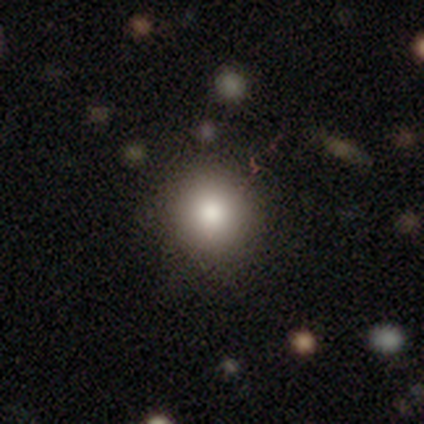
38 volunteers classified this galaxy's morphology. smooth 76%, star or artifact 13%, featured or disk 11%. Down the decision tree: how rounded — round (83%); merging — none (94%).